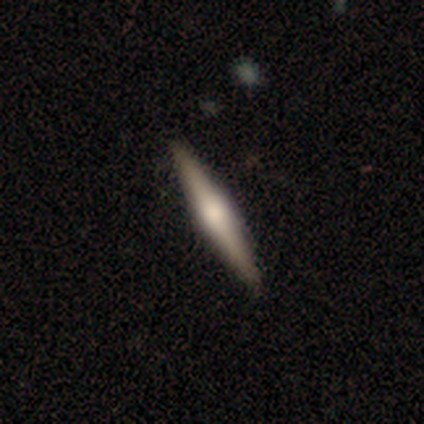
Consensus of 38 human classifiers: Smooth or featured? 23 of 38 (61%) said featured or disk. Edge-on disk? 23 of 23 (100%) said yes. Edge-on bulge? 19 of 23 (83%) said rounded. Merging? 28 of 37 (76%) said none.